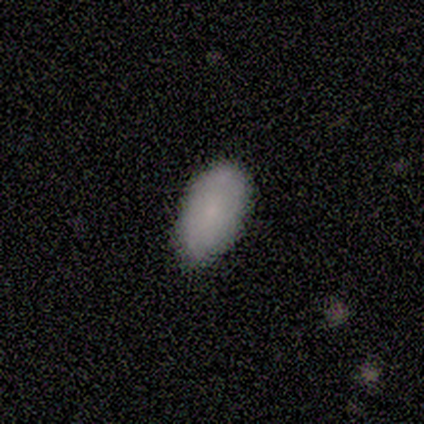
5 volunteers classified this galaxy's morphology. smooth_or_featured: smooth (p=0.80) [alt: featured or disk p=0.20]
how_rounded: in between (p=1.00)
merging: none (p=0.60) [alt: minor disturbance p=0.20]